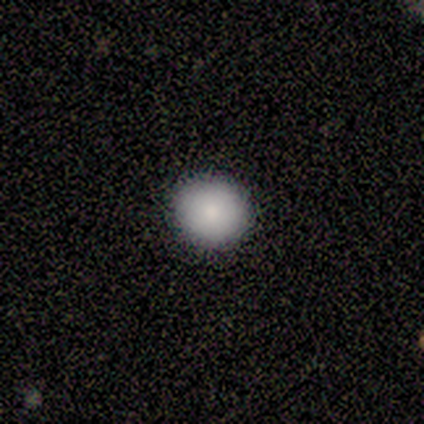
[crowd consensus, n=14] smooth-or-featured: smooth: 79% | featured or disk: 14% | star or artifact: 7%
  how-rounded: round: 91% | in between: 9% | cigar-shaped: 0%
  merging: none: 77% | minor disturbance: 23% | major disturbance: 0% | merger: 0%